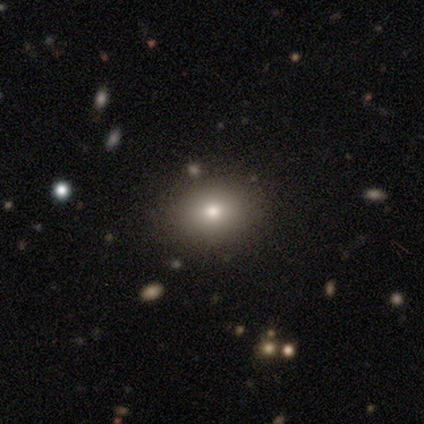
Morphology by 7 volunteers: smooth_or_featured: smooth (p=0.86) [alt: star or artifact p=0.14]
how_rounded: in between (p=0.67) [alt: round p=0.33]
merging: none (p=0.83) [alt: minor disturbance p=0.17]